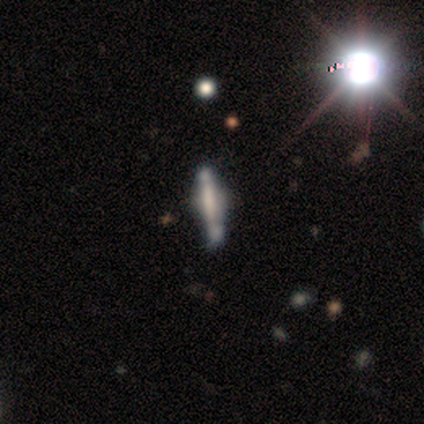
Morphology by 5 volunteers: Smooth or featured? 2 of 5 (40%, tied with star or artifact) said smooth. How rounded? 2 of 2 (100%) said in between. Merging? 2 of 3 (67%) said none.